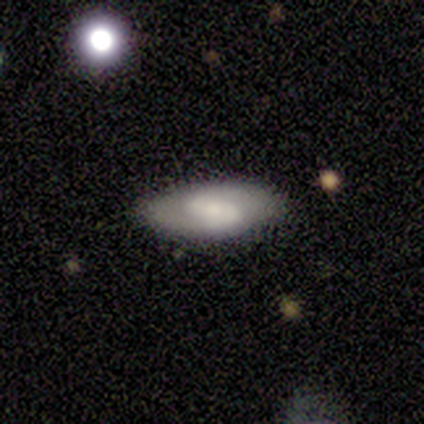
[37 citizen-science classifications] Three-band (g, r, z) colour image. It shows a featured or disk galaxy (78%) with a weak bar (39%), 2 (96%) medium (56%) spiral arms (89%) and a moderate central bulge (39%). Merging: none (92%).